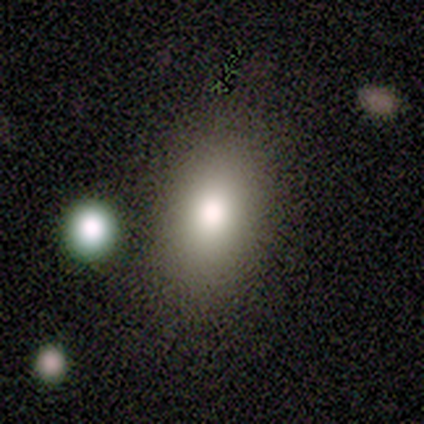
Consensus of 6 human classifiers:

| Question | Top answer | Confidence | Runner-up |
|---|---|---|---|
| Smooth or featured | smooth | 83% | featured or disk (17%) |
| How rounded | in between | 80% | round (20%) |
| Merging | none | 83% | minor disturbance (17%) |